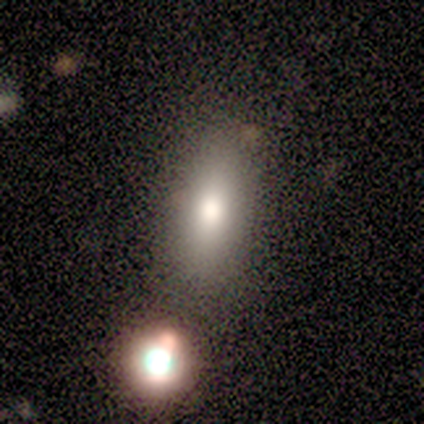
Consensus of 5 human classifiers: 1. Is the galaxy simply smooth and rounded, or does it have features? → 80% smooth, 20% star or artifact, 0% featured or disk.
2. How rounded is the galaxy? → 75% in between, 25% cigar-shaped, 0% round.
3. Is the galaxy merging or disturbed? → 100% none, 0% minor disturbance, 0% major disturbance, 0% merger.